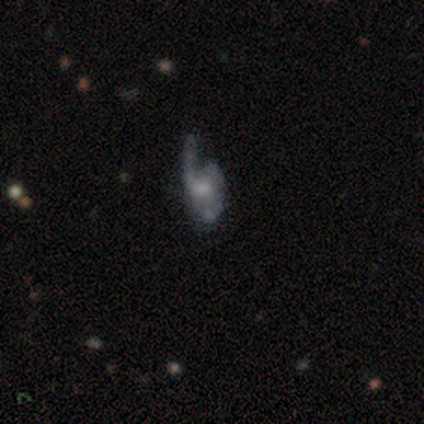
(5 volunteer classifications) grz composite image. It shows a featured or disk galaxy (80%) with no bar (100%), loose (67%) spiral arms (100%) and a small central bulge (67%). Merging: minor disturbance (60%).